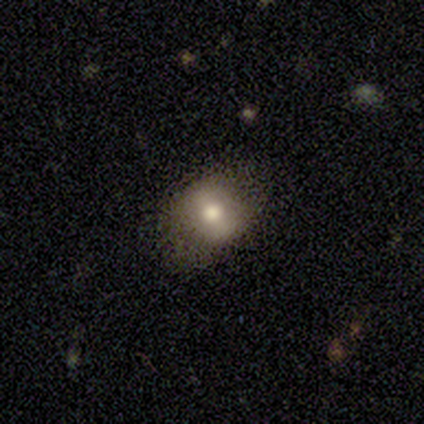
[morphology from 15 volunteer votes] This appears to be a smooth galaxy with no disk features (80%) that is round (58%). Merging: none (87%).